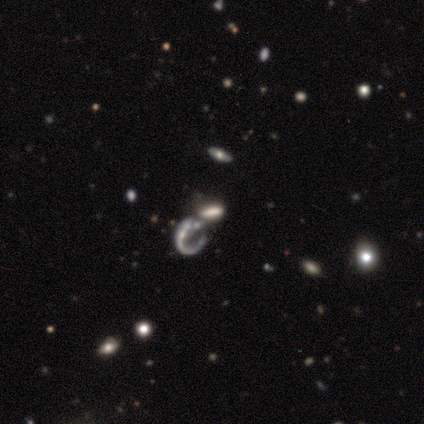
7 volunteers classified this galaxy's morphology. Smooth or featured: featured or disk — 57% (smooth — 29%)
Edge-on disk: no — 100%
Bar: no — 75% (weak — 25%)
Spiral arms: yes — 75% (no — 25%)
Spiral winding: loose — 67% (medium — 33%)
Spiral arm count: 1 — 100%
Bulge size: none — 75% (small — 25%)
Merging: merger — 83% (major disturbance — 17%)